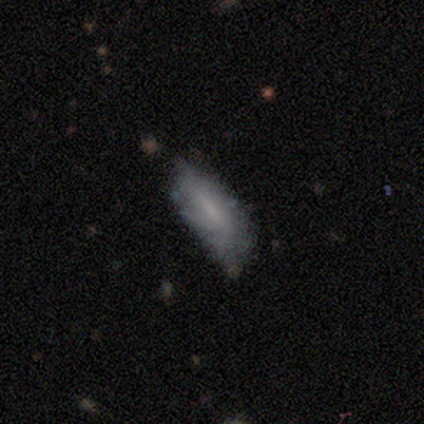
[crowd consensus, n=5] smooth_or_featured: featured or disk (p=1.00)
disk_edge_on: no (p=0.60) [alt: yes p=0.40]
bar: no (p=0.67) [alt: weak p=0.33]
has_spiral_arms: no (p=0.67) [alt: yes p=0.33]
bulge_size: none (p=0.67) [alt: small p=0.33]
merging: minor disturbance (p=0.80) [alt: none p=0.20]